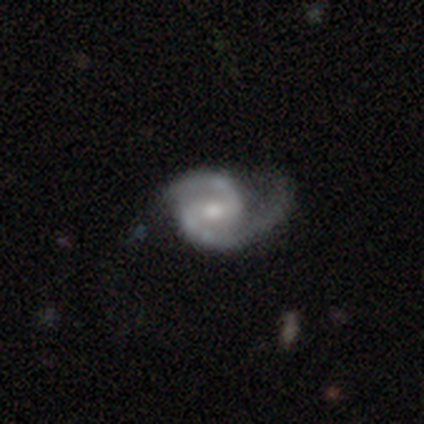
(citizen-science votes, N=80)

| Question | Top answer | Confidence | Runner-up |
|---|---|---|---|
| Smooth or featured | featured or disk | 95% | smooth (4%) |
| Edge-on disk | no | 100% | — |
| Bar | weak | 46% | no (28%) |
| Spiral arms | yes | 97% | no (3%) |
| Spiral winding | medium | 72% | loose (15%) |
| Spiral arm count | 2 | 100% | — |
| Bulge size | moderate | 64% | small (25%) |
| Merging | none | 29% | major disturbance (11%) |